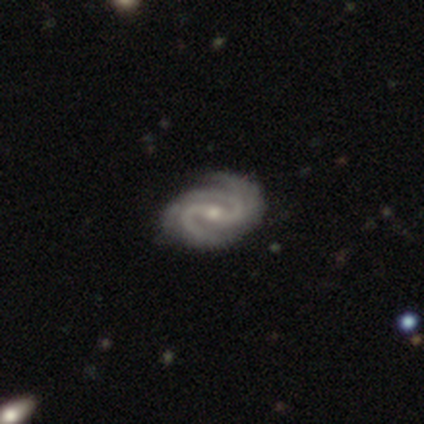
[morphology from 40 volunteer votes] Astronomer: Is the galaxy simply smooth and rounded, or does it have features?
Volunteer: featured or disk — 98%.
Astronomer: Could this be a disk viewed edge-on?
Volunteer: no — 97%.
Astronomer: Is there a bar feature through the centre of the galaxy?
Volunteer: weak — 53%.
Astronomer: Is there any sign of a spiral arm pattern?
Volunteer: yes — 97%.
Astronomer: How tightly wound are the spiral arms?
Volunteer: tight — 54% (runner-up: medium, 41%).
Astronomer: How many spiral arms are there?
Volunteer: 3 — 46% (runner-up: 2, 41%).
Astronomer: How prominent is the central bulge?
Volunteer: small — 47% (runner-up: moderate, 42%).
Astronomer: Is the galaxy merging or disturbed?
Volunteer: none — 44% (runner-up: minor disturbance, 21%).